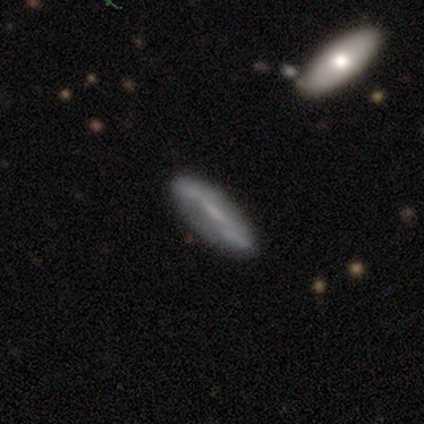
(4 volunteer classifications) This is possibly a smooth galaxy (50%, tied with featured or disk). How rounded: possibly in between (50%, tied with cigar-shaped). Merging: possibly none (50%).